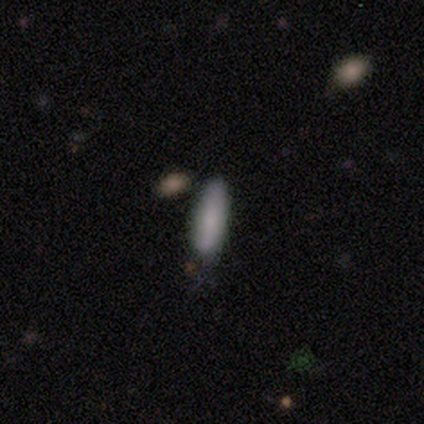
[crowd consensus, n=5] Morphology: type=smooth (100%); roundness=in between (60%); merging=none (80%).